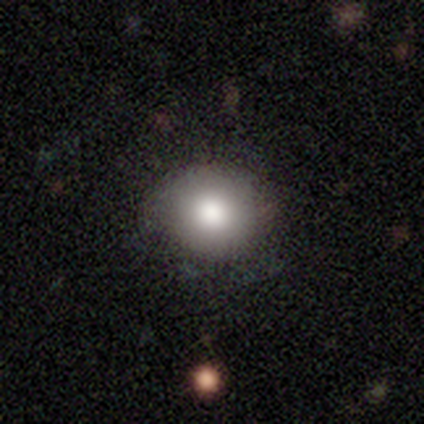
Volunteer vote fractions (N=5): This is clearly a smooth galaxy (80%). How rounded: clearly round (100%). Merging: clearly none (100%).